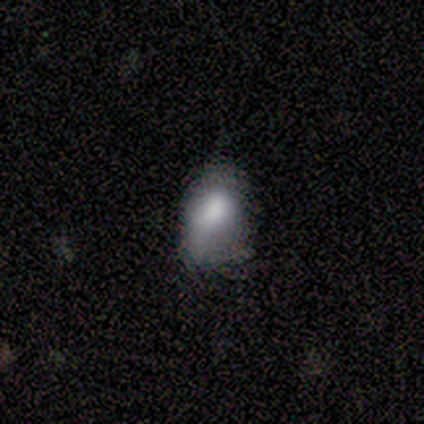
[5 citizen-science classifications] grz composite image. It shows a smooth galaxy with no disk features (80%) that is in between round and cigar-shaped (100%). Merging: minor disturbance (80%).